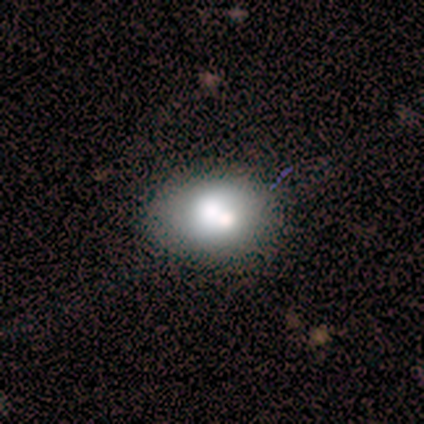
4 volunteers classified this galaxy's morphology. Smooth or featured? 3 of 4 (75%) said smooth. How rounded? 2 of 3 (67%) said in between. Merging? 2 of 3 (67%) said none.